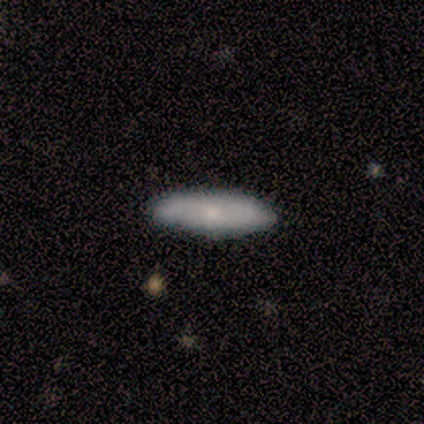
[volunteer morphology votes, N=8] This appears to be a smooth galaxy with no disk features (62%) that is cigar-shaped (80%). Merging: none (100%).